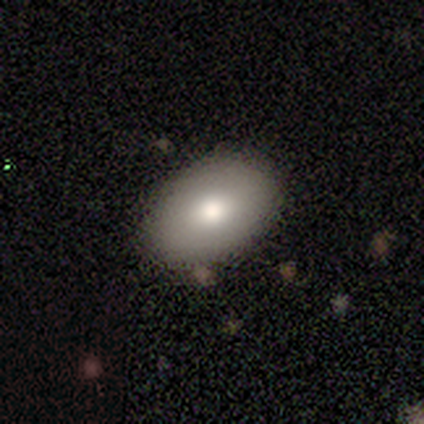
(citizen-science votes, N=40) A smooth galaxy with no disk features (82%) that is in between round and cigar-shaped (85%).

Vote fractions:
- Smooth or featured? smooth: 82% / featured or disk: 15% / star or artifact: 2%
- How rounded? in between: 85% / round: 12% / cigar-shaped: 3%
- Merging? none: 92% / minor disturbance: 5% / major disturbance: 3% / merger: 0%